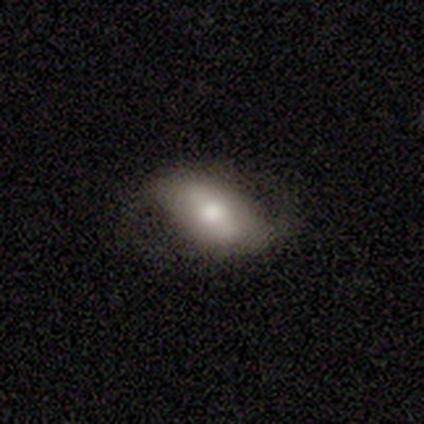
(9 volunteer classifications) A featured or disk galaxy (44%) with a strong bar (67%), 2 (100%) medium (50%, tied with loose) spiral arms (67%) and a moderate central bulge (67%).

Vote fractions:
- Smooth or featured? featured or disk: 44% / smooth: 33% / star or artifact: 22%
- Edge-on disk? no: 75% / yes: 25%
- Bar? strong: 67% / no: 33% / weak: 0%
- Spiral arms? yes: 67% / no: 33%
- Spiral winding? medium: 50% (tied) / loose: 50% (tied) / tight: 0%
- Spiral arm count? 2: 100% / 1: 0% / 3: 0% / 4: 0% / more than 4: 0% / can't tell: 0%
- Bulge size? moderate: 67% / large: 33% / dominant: 0% / small: 0% / none: 0%
- Merging? none: 57% / minor disturbance: 29% / major disturbance: 14% / merger: 0%